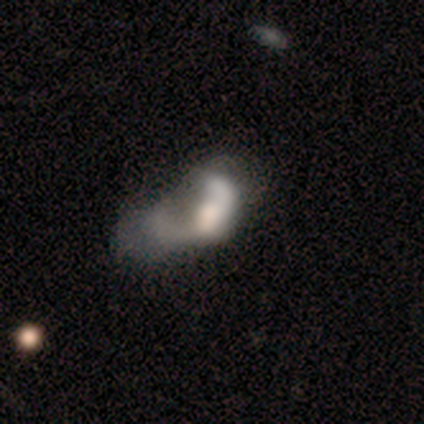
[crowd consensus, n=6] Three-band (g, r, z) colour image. It shows a featured or disk galaxy (67%) with no bar (100%), no spiral arms (75%) and a moderate central bulge (50%). Merging: major disturbance (60%).